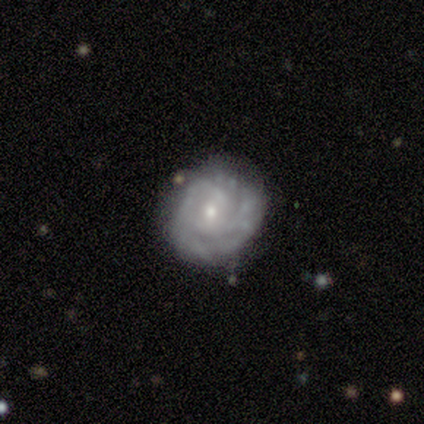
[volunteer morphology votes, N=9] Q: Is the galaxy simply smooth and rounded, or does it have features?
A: featured or disk — 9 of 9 (100%).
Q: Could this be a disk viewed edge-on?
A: no — 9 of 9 (100%).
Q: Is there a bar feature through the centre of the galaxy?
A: no — 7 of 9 (78%).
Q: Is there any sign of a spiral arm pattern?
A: yes — 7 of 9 (78%).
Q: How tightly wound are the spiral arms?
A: tight — 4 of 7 (57%).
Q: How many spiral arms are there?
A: can't tell — 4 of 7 (57%).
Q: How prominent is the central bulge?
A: small — 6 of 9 (67%).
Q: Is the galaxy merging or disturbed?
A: none — 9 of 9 (100%).